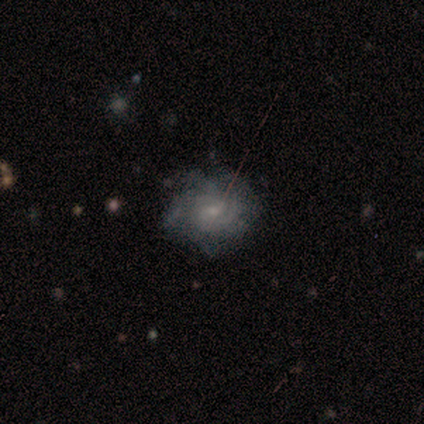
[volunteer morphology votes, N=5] Smooth or featured: featured or disk — 60% (smooth — 40%)
Edge-on disk: no — 100%
Bar: no — 67% (weak — 33%)
Spiral arms: yes — 100%
Spiral winding: medium — 67% (tight — 33%)
Spiral arm count: 4 — 67% (3 — 33%)
Bulge size: small — 67% (moderate — 33%)
Merging: none — 60% (minor disturbance — 20%)